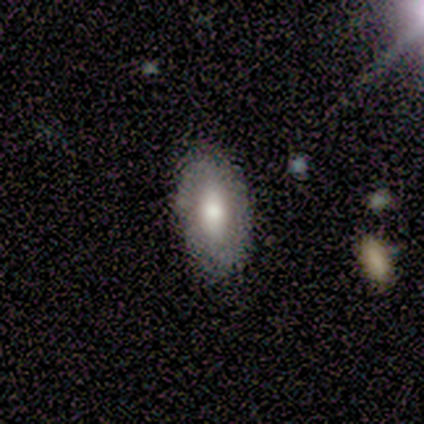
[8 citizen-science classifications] Smooth or featured?
  - smooth: 62% *
  - featured or disk: 38%
  - star or artifact: 0%
How rounded?
  - in between: 100% *
  - round: 0%
  - cigar-shaped: 0%
Merging?
  - none: 88% *
  - minor disturbance: 12%
  - major disturbance: 0%
  - merger: 0%